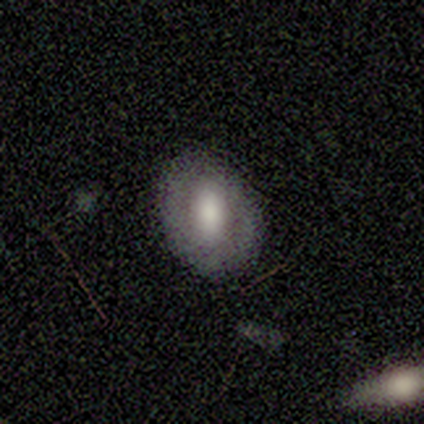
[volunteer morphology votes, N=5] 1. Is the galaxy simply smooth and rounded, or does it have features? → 60% smooth, 40% featured or disk, 0% star or artifact.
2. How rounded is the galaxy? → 67% in between, 33% round, 0% cigar-shaped.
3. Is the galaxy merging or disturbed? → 80% none, 20% major disturbance, 0% minor disturbance, 0% merger.